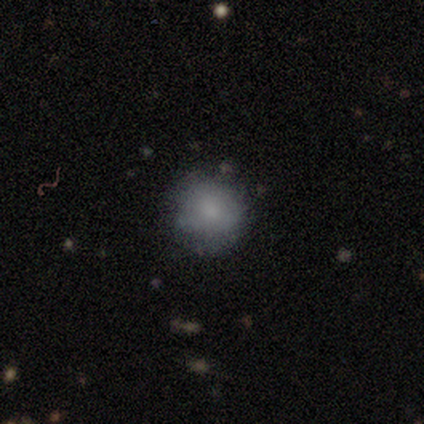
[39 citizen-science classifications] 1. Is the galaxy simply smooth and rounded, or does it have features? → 79% smooth, 18% featured or disk, 3% star or artifact.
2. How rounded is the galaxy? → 94% round, 6% in between, 0% cigar-shaped.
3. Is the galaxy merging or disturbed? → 68% none, 24% minor disturbance, 8% major disturbance, 0% merger.